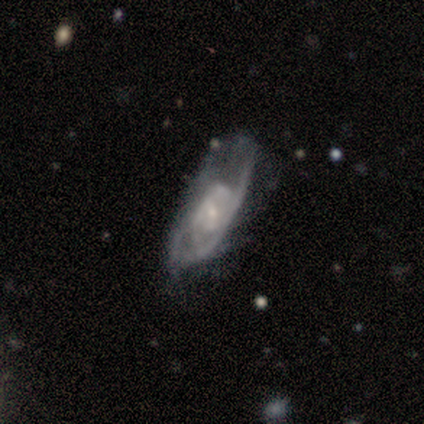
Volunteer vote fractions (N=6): Smooth or featured? featured or disk (100%)
Edge-on disk? no (83%)
Bar? no (60%)
Spiral arms? yes (100%)
Spiral winding? tight (100%)
Spiral arm count? 3 (40%)
Bulge size? small (80%)
Merging? none (50%)